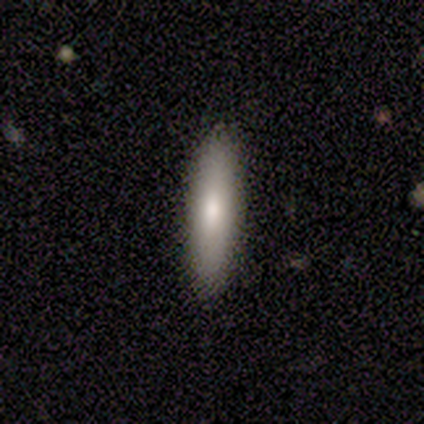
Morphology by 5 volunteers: smooth-or-featured: smooth: 80% | featured or disk: 20% | star or artifact: 0%
  how-rounded: cigar-shaped: 75% | in between: 25% | round: 0%
  merging: none: 80% | minor disturbance: 20% | major disturbance: 0% | merger: 0%